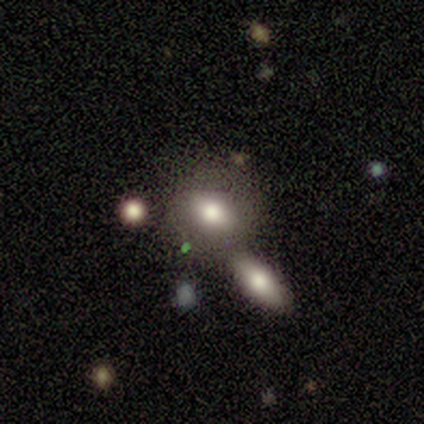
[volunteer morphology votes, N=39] Smooth or featured: smooth — 74% (featured or disk — 18%)
How rounded: in between — 66% (round — 34%)
Merging: merger — 58% (none — 33%)